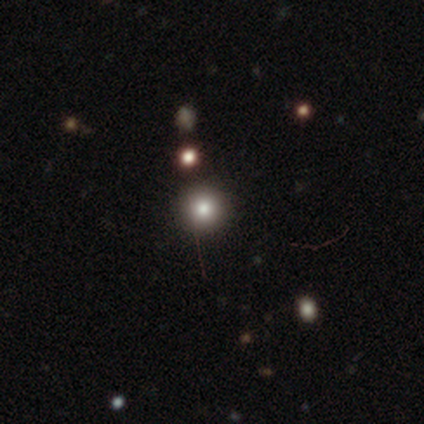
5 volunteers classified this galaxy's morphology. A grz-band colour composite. It shows a smooth galaxy with no disk features (80%) that is round (100%). Merging: none (100%).